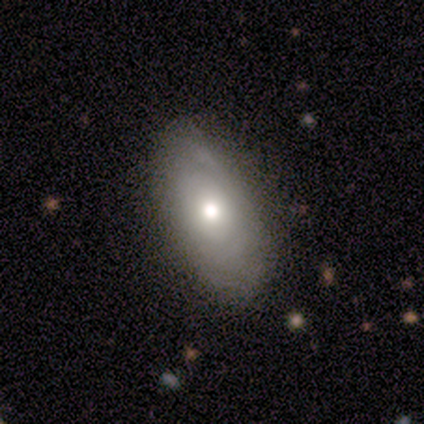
Overall: smooth (60%; featured or disk 40%). How rounded: in between (100%). Merging: none (80%).